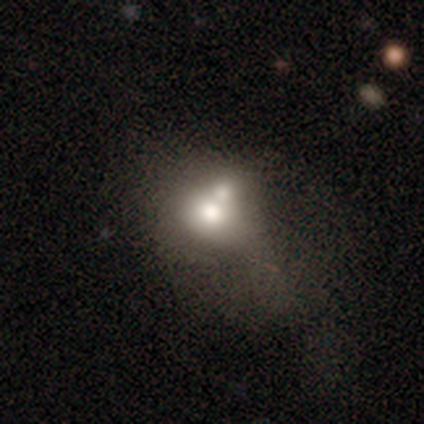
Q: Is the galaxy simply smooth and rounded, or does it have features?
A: smooth — 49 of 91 (54%).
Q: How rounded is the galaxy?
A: in between — 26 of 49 (53%).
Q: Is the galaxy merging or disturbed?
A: merger — 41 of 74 (55%).